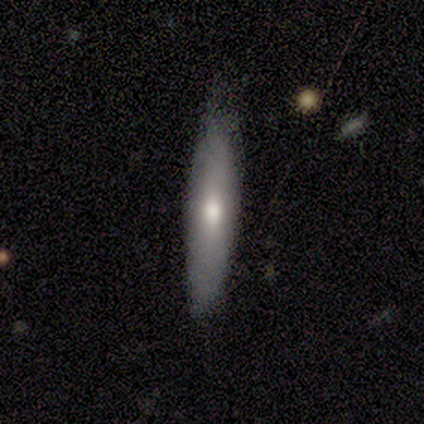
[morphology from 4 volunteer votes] Smooth or featured: smooth — 50% (tied with featured or disk — 50%)
How rounded: cigar-shaped — 100%
Merging: none — 75% (minor disturbance — 25%)